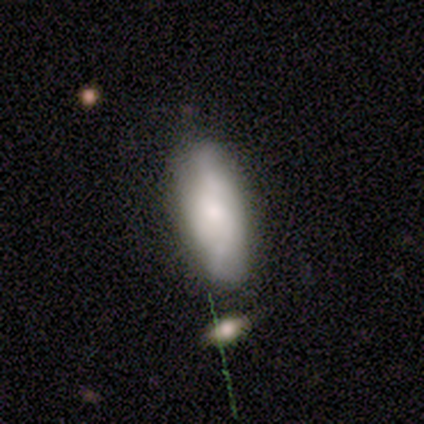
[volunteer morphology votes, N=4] A smooth galaxy with no disk features (100%) that is in between round and cigar-shaped (75%).

Vote fractions:
- Smooth or featured? smooth: 100% / featured or disk: 0% / star or artifact: 0%
- How rounded? in between: 75% / cigar-shaped: 25% / round: 0%
- Merging? none: 100% / minor disturbance: 0% / major disturbance: 0% / merger: 0%